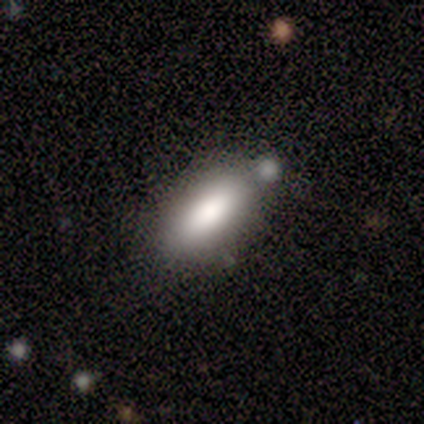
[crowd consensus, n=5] A smooth galaxy with no disk features (80%) that is in between round and cigar-shaped (75%).

Vote fractions:
- Smooth or featured? smooth: 80% / featured or disk: 20% / star or artifact: 0%
- How rounded? in between: 75% / cigar-shaped: 25% / round: 0%
- Merging? none: 40% (tied) / minor disturbance: 40% (tied) / merger: 20% / major disturbance: 0%